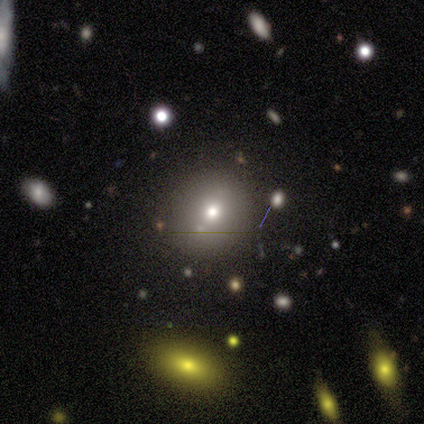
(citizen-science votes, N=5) Overall: smooth (80%). How rounded: round (75%). Merging: none (100%).